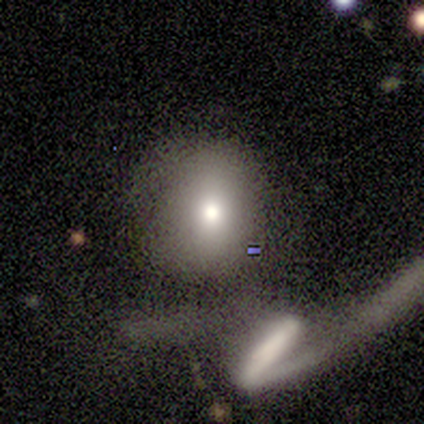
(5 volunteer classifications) smooth 80%, featured or disk 20%, star or artifact 0%. Down the decision tree: how rounded — round (50%, tied with in between); merging — none (40%, tied with major disturbance).